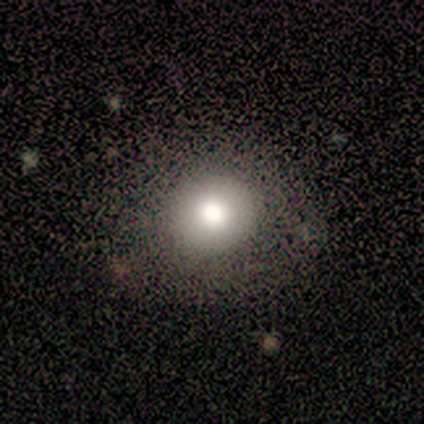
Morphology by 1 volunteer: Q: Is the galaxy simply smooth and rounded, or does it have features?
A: smooth — 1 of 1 (100%).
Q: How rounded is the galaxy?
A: round — 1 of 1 (100%).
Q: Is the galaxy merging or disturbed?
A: none — 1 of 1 (100%).